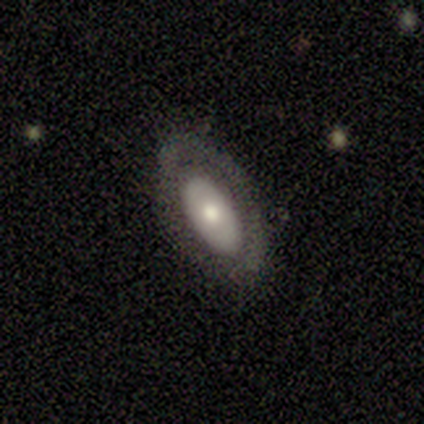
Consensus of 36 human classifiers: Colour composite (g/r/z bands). It shows a smooth galaxy with no disk features (50%) that is in between round and cigar-shaped (94%). Merging: none (91%).